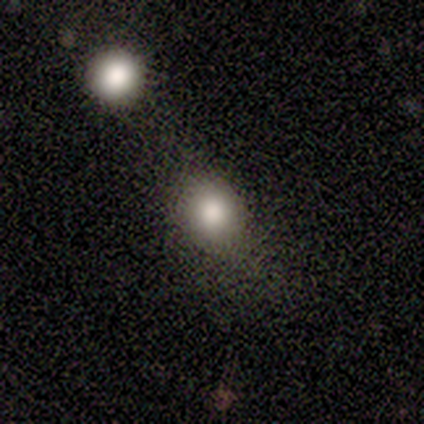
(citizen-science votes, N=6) smooth 83%, star or artifact 17%, featured or disk 0%. Down the decision tree: how rounded — round (100%); merging — none (80%).